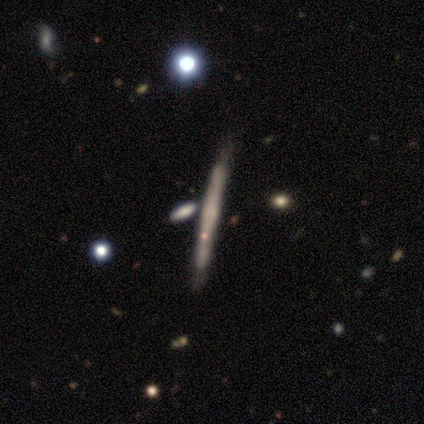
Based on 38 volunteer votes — smooth_or_featured: featured or disk (p=0.53) [alt: smooth p=0.39]
disk_edge_on: yes (p=0.95) [alt: no p=0.05]
edge_on_bulge: rounded (p=0.53) [alt: none p=0.37]
merging: none (p=0.69) [alt: minor disturbance p=0.23]